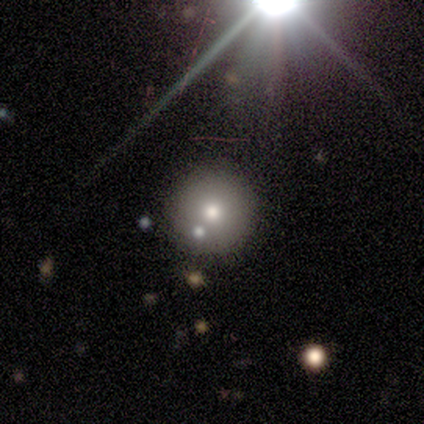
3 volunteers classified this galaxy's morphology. This appears to be a featured or disk galaxy (67%) viewed edge-on (50%, tied with no) with no central bulge (100%). Merging: none (100%).